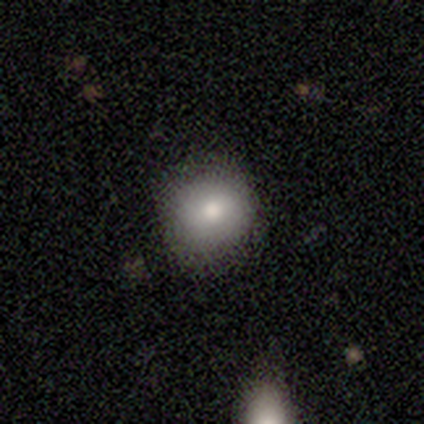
smooth-or-featured: smooth: 80% | featured or disk: 20% | star or artifact: 0%
  how-rounded: round: 100% | in between: 0% | cigar-shaped: 0%
  merging: none: 80% | minor disturbance: 20% | major disturbance: 0% | merger: 0%